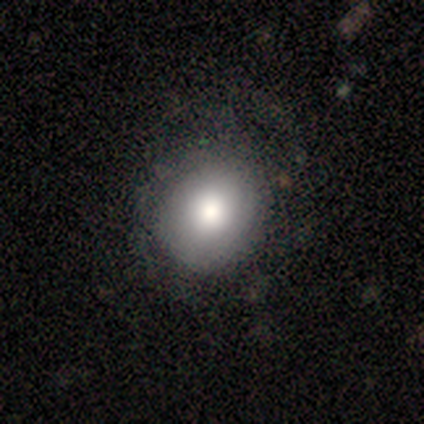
Morphology: type=smooth (85%); roundness=round (88%); merging=none (54%).